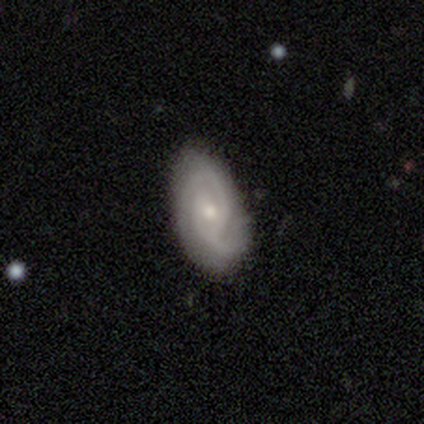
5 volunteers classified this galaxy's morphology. Smooth or featured? featured or disk (100%)
Edge-on disk? no (100%)
Bar? no (100%)
Spiral arms? yes (100%)
Spiral winding? tight (40%, tied with medium)
Spiral arm count? can't tell (60%)
Bulge size? small (100%)
Merging? none (80%)